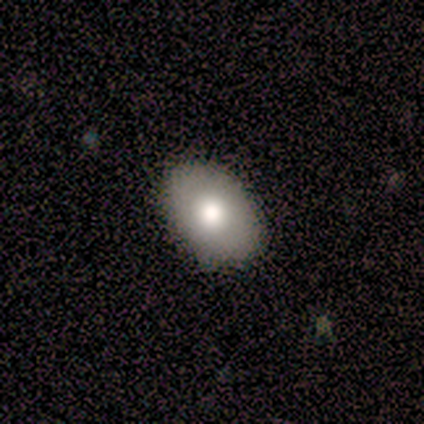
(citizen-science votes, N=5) Volunteers were most divided on "how rounded": in between: 80%, round: 20%, cigar-shaped: 0%. More confident: smooth or featured — smooth (100%); merging — none (80%).